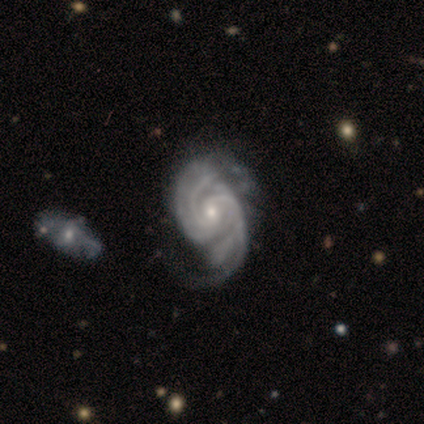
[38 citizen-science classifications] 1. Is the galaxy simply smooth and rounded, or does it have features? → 95% featured or disk, 3% smooth, 3% star or artifact.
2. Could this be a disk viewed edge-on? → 97% no, 3% yes.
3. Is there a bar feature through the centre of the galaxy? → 60% no, 23% weak, 17% strong.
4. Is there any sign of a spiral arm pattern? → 97% yes, 3% no.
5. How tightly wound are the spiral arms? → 44% medium, 41% tight, 15% loose.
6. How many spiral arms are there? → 53% 2, 18% 4, 12% can't tell, 9% 3, 9% more than 4, 0% 1.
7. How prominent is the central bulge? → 51% small, 43% moderate, 3% dominant, 3% large, 0% none.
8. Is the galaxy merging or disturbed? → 24% minor disturbance, 22% none, 11% major disturbance, 5% merger.